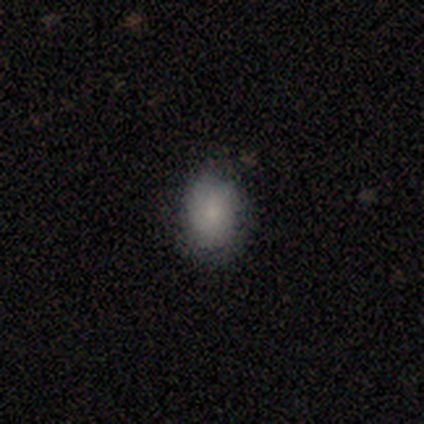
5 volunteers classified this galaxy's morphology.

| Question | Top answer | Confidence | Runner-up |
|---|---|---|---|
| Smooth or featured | smooth | 100% | — |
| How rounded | in between | 60% | round (40%) |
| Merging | none | 80% | minor disturbance (20%) |